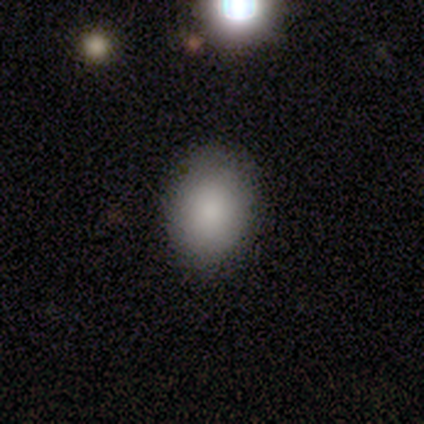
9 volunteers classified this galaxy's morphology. Overall: smooth (89%). How rounded: in between (62%; round 38%). Merging: none (100%).